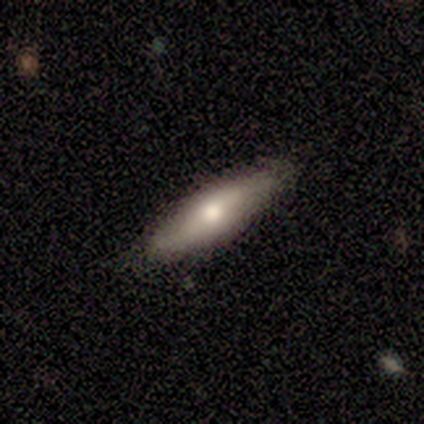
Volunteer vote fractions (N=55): featured or disk 55%, smooth 42%, star or artifact 4%. Down the decision tree: edge-on disk — no (53%); bar — no (69%); spiral arms — no (62%); bulge size — moderate (69%); merging — none (91%).